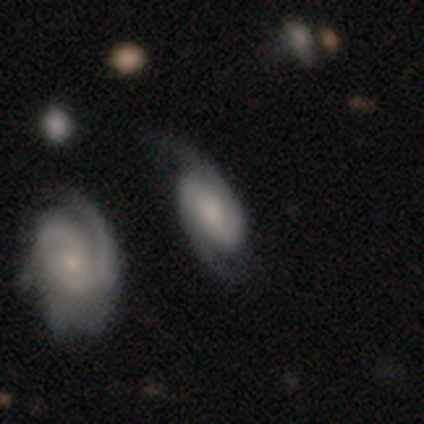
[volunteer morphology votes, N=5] featured or disk 80%, smooth 20%, star or artifact 0%. Down the decision tree: edge-on disk — no (100%); bar — weak (50%, tied with no); spiral arms — yes (75%); spiral arm count — 2 (100%); spiral winding — tight (33%, tied with medium and loose); bulge size — small (50%); merging — none (80%).